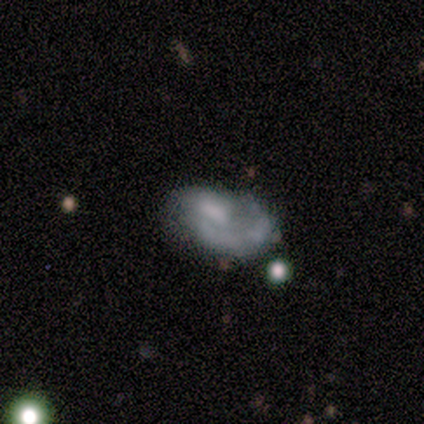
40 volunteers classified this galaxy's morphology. smooth-or-featured: featured or disk: 62% | smooth: 30% | star or artifact: 8%
  disk-edge-on: no: 92% | yes: 8%
    bar: no: 74% | weak: 22% | strong: 4%
    has-spiral-arms: yes: 70% | no: 30%
      spiral-winding: tight: 44% (tied) | medium: 44% (tied) | loose: 12%
      spiral-arm-count: 1: 81% | 2: 12% | can't tell: 6% | 3: 0% | 4: 0% | more than 4: 0%
    bulge-size: none: 61% | moderate: 26% | large: 9% | small: 4% | dominant: 0%
  merging: none: 43% | major disturbance: 32% | minor disturbance: 16% | merger: 8%